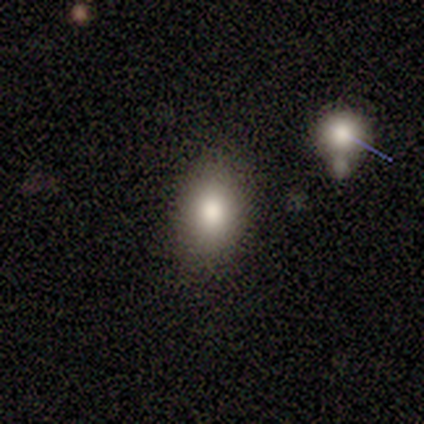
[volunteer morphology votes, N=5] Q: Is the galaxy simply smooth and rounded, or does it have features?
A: smooth — 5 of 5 (100%).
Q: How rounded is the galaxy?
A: in between — 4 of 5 (80%).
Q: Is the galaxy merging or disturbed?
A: none — 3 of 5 (60%).